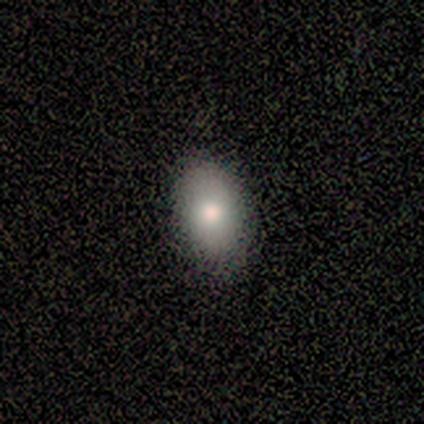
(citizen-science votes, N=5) A smooth galaxy with no disk features (60%) that is in between round and cigar-shaped (100%).

Vote fractions:
- Smooth or featured? smooth: 60% / featured or disk: 20% / star or artifact: 20%
- How rounded? in between: 100% / round: 0% / cigar-shaped: 0%
- Merging? none: 100% / minor disturbance: 0% / major disturbance: 0% / merger: 0%